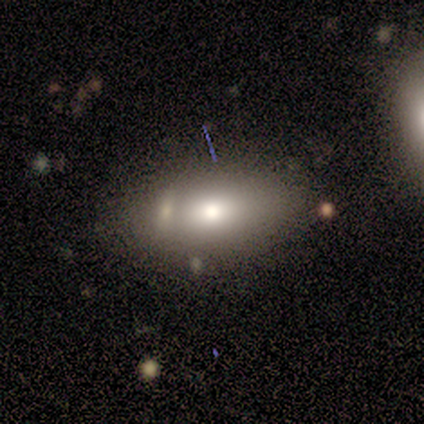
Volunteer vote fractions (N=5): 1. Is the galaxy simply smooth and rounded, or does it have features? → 80% smooth, 20% featured or disk, 0% star or artifact.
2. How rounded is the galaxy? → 50% in between, 25% round, 25% cigar-shaped.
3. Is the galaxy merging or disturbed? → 40% merger, 20% none, 20% minor disturbance, 20% major disturbance.